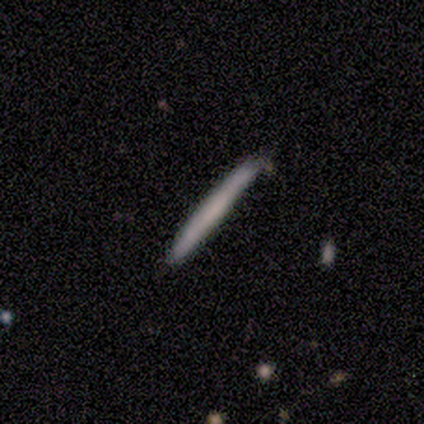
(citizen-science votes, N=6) Smooth or featured? 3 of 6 (50%, tied with featured or disk) said smooth. How rounded? 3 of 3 (100%) said cigar-shaped. Merging? 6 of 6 (100%) said none.